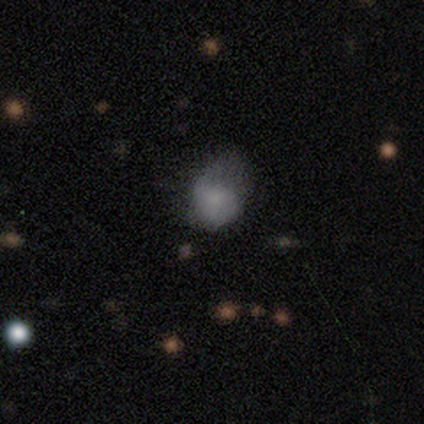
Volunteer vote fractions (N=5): Q: Smooth or featured?
A: smooth (80%); runner-up: featured or disk (20%)
Q: How rounded?
A: in between (75%); runner-up: round (25%)
Q: Merging?
A: minor disturbance (60%); runner-up: none (20%)